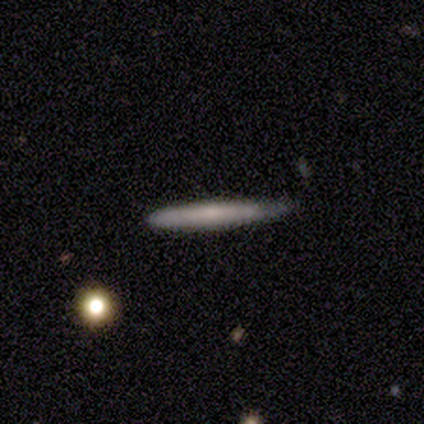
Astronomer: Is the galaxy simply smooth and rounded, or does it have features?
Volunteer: smooth — 60%.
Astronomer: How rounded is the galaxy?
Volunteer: cigar-shaped — 100%.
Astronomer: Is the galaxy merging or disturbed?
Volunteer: none — 50%, tied with minor disturbance at 50%.